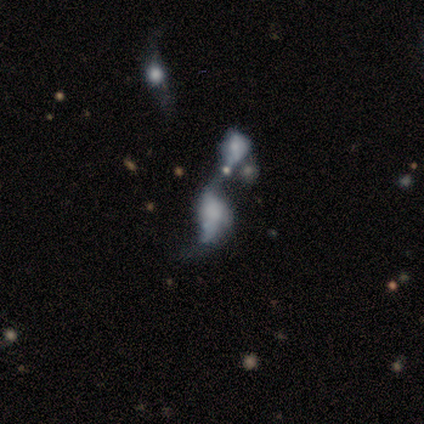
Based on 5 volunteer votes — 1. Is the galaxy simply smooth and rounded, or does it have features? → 60% featured or disk, 40% smooth, 0% star or artifact.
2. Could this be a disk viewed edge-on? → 100% no, 0% yes.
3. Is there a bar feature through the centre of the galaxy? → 100% no, 0% strong, 0% weak.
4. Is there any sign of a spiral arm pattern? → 100% no, 0% yes.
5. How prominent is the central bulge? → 67% none, 33% small, 0% dominant, 0% large, 0% moderate.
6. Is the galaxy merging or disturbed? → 60% merger, 40% major disturbance, 0% none, 0% minor disturbance.